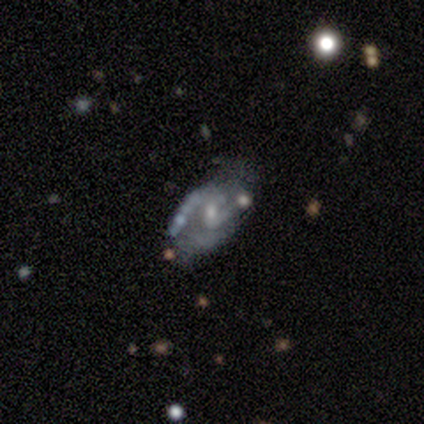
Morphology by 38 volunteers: Volunteers were most divided on "bar": no: 50%, weak: 44%, strong: 6%. Remaining: edge-on disk — no (100%); spiral arm count — 2 (85%); spiral arms — yes (84%); smooth or featured — featured or disk (84%); bulge size — small (62%); merging — none (60%); spiral winding — medium (48%).